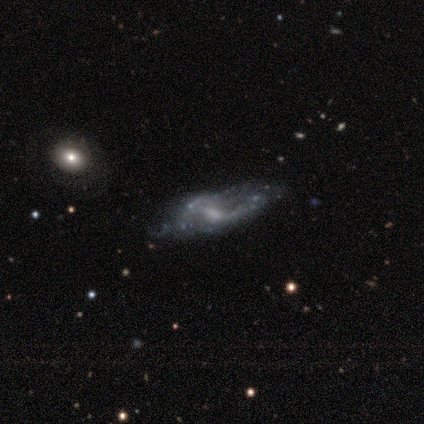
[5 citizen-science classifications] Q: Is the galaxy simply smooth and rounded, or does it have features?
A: featured or disk — 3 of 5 (60%).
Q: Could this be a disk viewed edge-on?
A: no — 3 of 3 (100%).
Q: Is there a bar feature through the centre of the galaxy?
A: strong — 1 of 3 (33%, tied with weak and no).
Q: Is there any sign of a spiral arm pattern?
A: yes — 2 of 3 (67%).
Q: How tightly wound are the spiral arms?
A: tight — 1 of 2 (50%, tied with medium).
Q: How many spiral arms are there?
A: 2 — 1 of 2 (50%, tied with can't tell).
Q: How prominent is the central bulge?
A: moderate — 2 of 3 (67%).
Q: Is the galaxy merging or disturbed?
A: minor disturbance — 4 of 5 (80%).